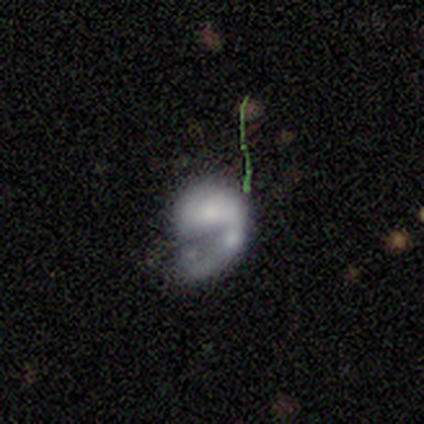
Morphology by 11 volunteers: This is possibly a smooth galaxy (45%, tied with featured or disk). How rounded: clearly in between (100%). Merging: marginally major disturbance (40%).